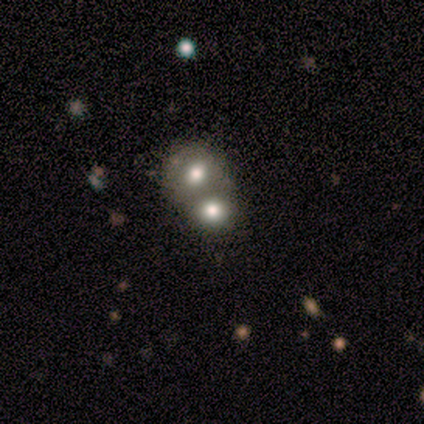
smooth 80%, featured or disk 20%, star or artifact 0%. Down the decision tree: how rounded — round (75%); merging — merger (60%).